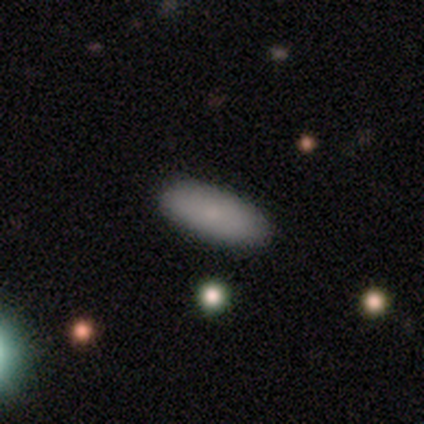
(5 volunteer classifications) Q: Smooth or featured?
A: smooth (100%)
Q: How rounded?
A: in between (100%)
Q: Merging?
A: none (100%)